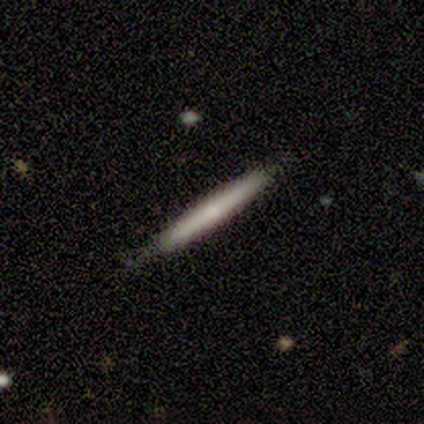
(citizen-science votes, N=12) A smooth galaxy with no disk features (58%) that is cigar-shaped (100%). Merging: none (91%).